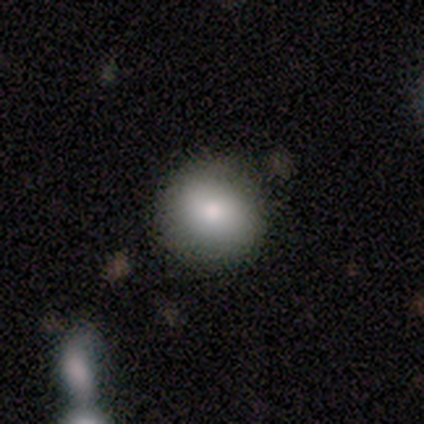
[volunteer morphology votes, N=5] smooth_or_featured: smooth (p=0.60) [alt: featured or disk p=0.40]
how_rounded: round (p=1.00)
merging: none (p=0.80) [alt: minor disturbance p=0.20]